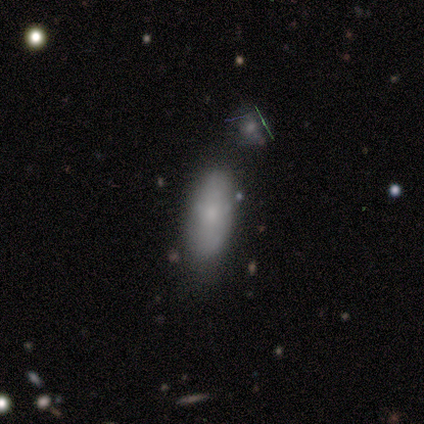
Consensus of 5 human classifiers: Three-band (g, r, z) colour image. It shows a smooth galaxy with no disk features (80%) that is in between round and cigar-shaped (75%). Merging: none (60%).